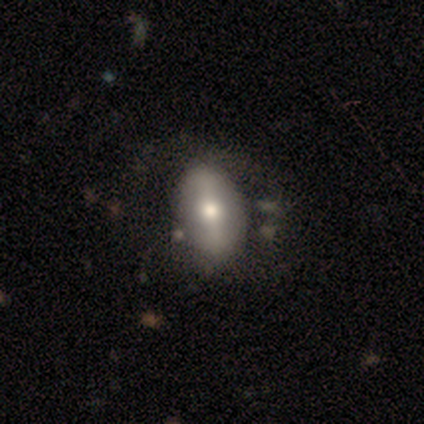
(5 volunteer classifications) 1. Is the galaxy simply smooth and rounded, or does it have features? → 60% featured or disk, 20% smooth, 20% star or artifact.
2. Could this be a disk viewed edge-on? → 100% no, 0% yes.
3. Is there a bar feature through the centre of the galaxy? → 33% strong (tied), 33% weak (tied), 33% no (tied).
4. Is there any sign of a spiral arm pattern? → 100% no, 0% yes.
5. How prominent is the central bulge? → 67% moderate, 33% large, 0% dominant, 0% small, 0% none.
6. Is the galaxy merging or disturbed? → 50% minor disturbance, 25% none, 25% major disturbance, 0% merger.